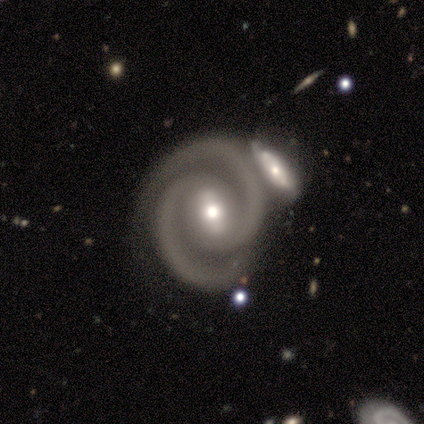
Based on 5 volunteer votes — featured or disk 100%, smooth 0%, star or artifact 0%. Down the decision tree: edge-on disk — no (100%); bar — weak (60%); spiral arms — yes (100%); spiral arm count — 2 (100%); spiral winding — tight (80%); bulge size — moderate (60%); merging — none (60%).